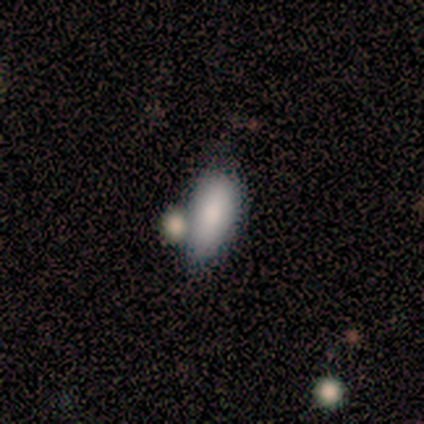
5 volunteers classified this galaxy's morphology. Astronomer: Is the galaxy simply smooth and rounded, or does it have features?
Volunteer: smooth — 100%.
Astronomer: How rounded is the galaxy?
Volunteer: in between — 80%.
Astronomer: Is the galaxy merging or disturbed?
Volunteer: none — 80%.